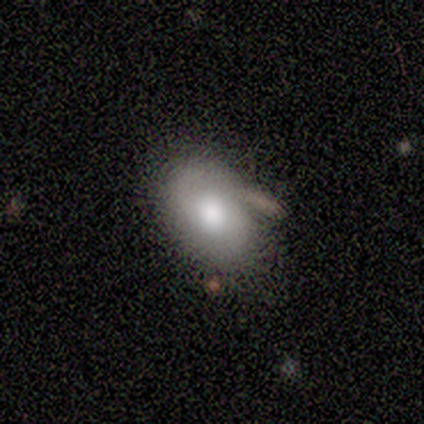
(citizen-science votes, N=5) This is clearly a smooth galaxy (80%). How rounded: clearly in between (100%). Merging: clearly none (80%).